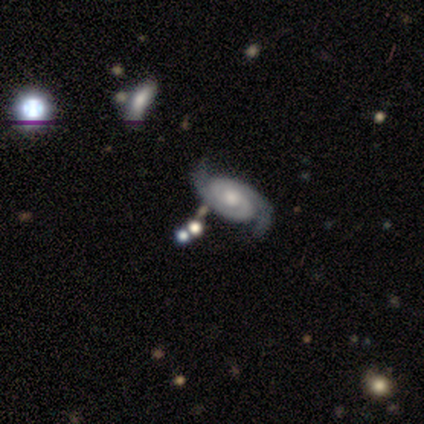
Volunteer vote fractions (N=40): smooth_or_featured: featured or disk (p=0.95) [alt: smooth p=0.03]
disk_edge_on: no (p=0.97) [alt: yes p=0.03]
bar: no (p=0.76) [alt: weak p=0.19]
has_spiral_arms: yes (p=0.97) [alt: no p=0.03]
spiral_winding: tight (p=0.50) [alt: medium p=0.44]
spiral_arm_count: 2 (p=0.97) [alt: can't tell p=0.03]
bulge_size: moderate (p=0.76) [alt: large p=0.11]
merging: none (p=0.54) [alt: minor disturbance p=0.08]